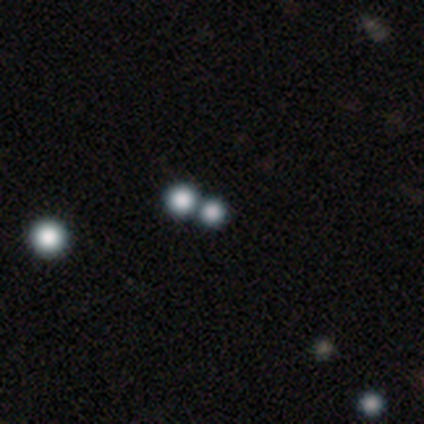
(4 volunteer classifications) Smooth or featured: star or artifact — 75% (smooth — 25%)